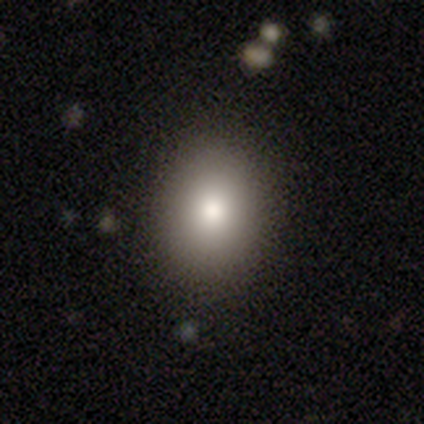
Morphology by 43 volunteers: A smooth galaxy with no disk features (88%) that is in between round and cigar-shaped (66%). Merging: none (95%).